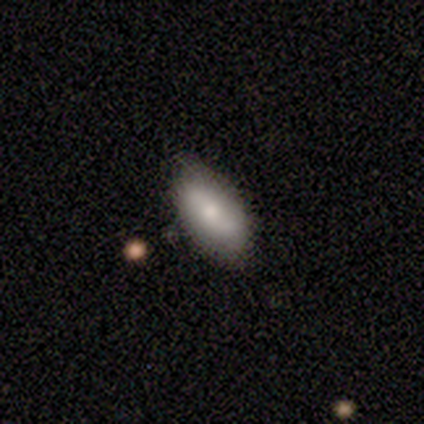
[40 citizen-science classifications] This appears to be a smooth galaxy with no disk features (70%) that is in between round and cigar-shaped (93%). Merging: none (62%).